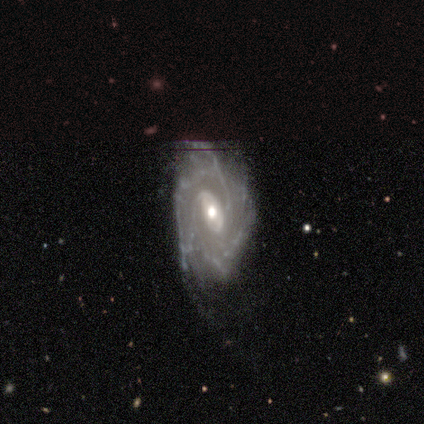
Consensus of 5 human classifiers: A featured or disk galaxy (100%) with no bar (60%), 3 (40%, tied with more than 4) tight (80%) spiral arms (100%) and a moderate central bulge (80%).

Vote fractions:
- Smooth or featured? featured or disk: 100% / smooth: 0% / star or artifact: 0%
- Edge-on disk? no: 100% / yes: 0%
- Bar? no: 60% / strong: 20% / weak: 20%
- Spiral arms? yes: 100% / no: 0%
- Spiral winding? tight: 80% / medium: 20% / loose: 0%
- Spiral arm count? 3: 40% (tied) / more than 4: 40% (tied) / 4: 20% / 1: 0% / 2: 0% / can't tell: 0%
- Bulge size? moderate: 80% / small: 20% / dominant: 0% / large: 0% / none: 0%
- Merging? none: 80% / major disturbance: 20% / minor disturbance: 0% / merger: 0%